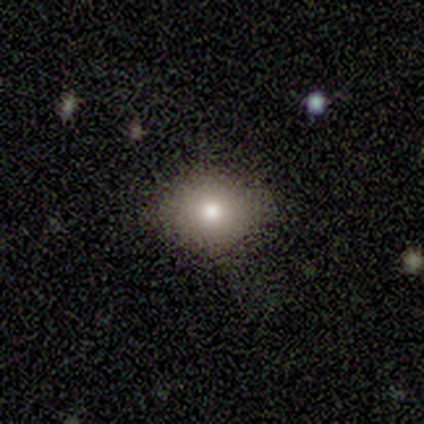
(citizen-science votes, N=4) A smooth galaxy with no disk features (100%) that is round (50%, tied with in between).

Vote fractions:
- Smooth or featured? smooth: 100% / featured or disk: 0% / star or artifact: 0%
- How rounded? round: 50% (tied) / in between: 50% (tied) / cigar-shaped: 0%
- Merging? none: 100% / minor disturbance: 0% / major disturbance: 0% / merger: 0%